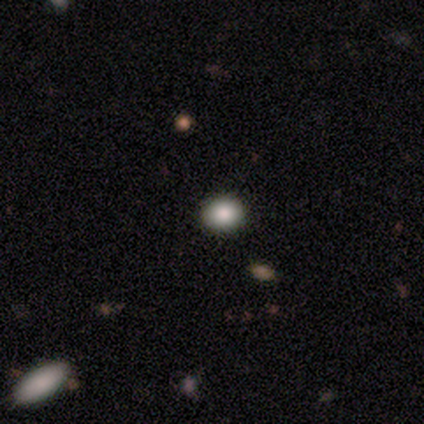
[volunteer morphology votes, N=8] Smooth or featured? 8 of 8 (100%) said smooth. How rounded? 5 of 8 (62%) said round. Merging? 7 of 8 (88%) said none.